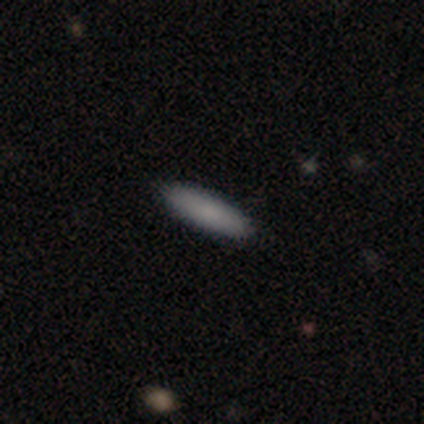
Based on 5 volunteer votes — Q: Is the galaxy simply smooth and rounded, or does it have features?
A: smooth — 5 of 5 (100%).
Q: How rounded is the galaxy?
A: cigar-shaped — 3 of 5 (60%).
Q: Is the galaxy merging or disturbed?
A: none — 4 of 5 (80%).